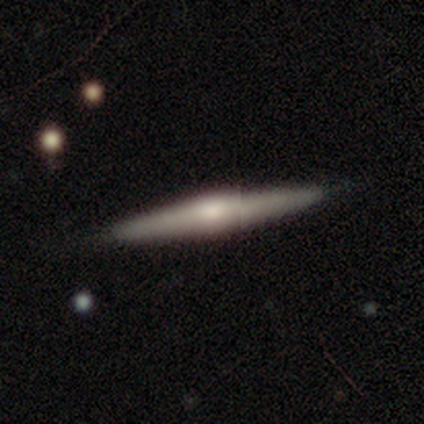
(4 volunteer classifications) Smooth or featured?
  - featured or disk: 75% *
  - smooth: 25%
  - star or artifact: 0%
Edge-on disk?
  - yes: 100% *
  - no: 0%
Edge-on bulge?
  - rounded: 100% *
  - boxy: 0%
  - none: 0%
Merging?
  - none: 75% *
  - minor disturbance: 25%
  - major disturbance: 0%
  - merger: 0%